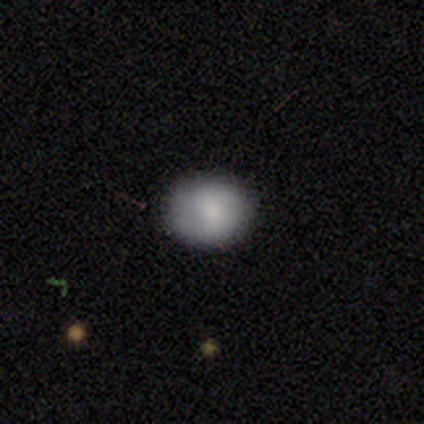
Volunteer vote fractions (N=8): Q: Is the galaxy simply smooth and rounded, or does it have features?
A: smooth — 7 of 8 (88%).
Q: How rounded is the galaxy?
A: round — 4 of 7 (57%).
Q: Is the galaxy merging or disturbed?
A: none — 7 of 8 (88%).